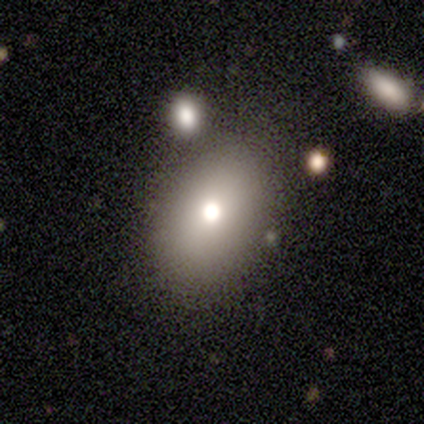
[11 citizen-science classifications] Morphology: type=smooth (73%); roundness=in between (75%); merging=none (80%).